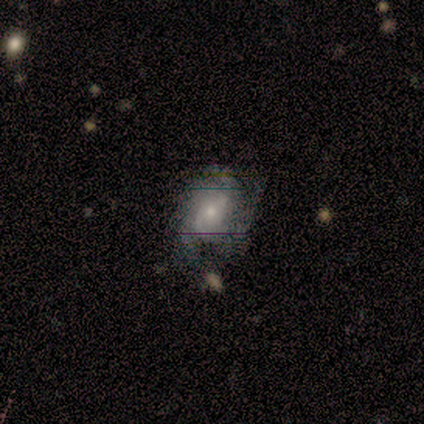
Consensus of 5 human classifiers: Overall: featured or disk (100%). Edge-on disk: no (100%). Bar: no (60%; strong 20%). Spiral arms: yes (100%). Spiral arm count: can't tell (60%; 2 40%). Spiral winding: tight (60%; loose 40%). Bulge size: small (80%). Merging: none (80%).